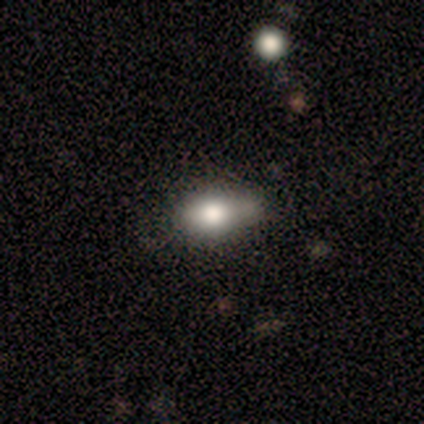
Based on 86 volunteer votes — Morphology: type=smooth (81%); roundness=in between (86%); merging=minor disturbance (42%).